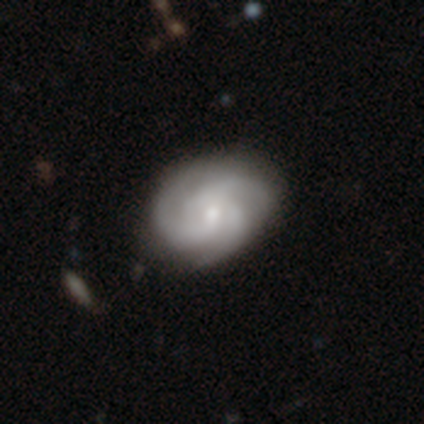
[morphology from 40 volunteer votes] A featured or disk galaxy (92%) with no bar (68%), 3 (89%) medium (50%) spiral arms (97%) and a small central bulge (54%).

Vote fractions:
- Smooth or featured? featured or disk: 92% / smooth: 8% / star or artifact: 0%
- Edge-on disk? no: 100% / yes: 0%
- Bar? no: 68% / weak: 27% / strong: 5%
- Spiral arms? yes: 97% / no: 3%
- Spiral winding? medium: 50% / tight: 42% / loose: 8%
- Spiral arm count? 3: 89% / 2: 6% / 4: 3% / can't tell: 3% / 1: 0% / more than 4: 0%
- Bulge size? small: 54% / moderate: 32% / none: 8% / large: 5% / dominant: 0%
- Merging? none: 65% / minor disturbance: 8% / major disturbance: 2% / merger: 2%